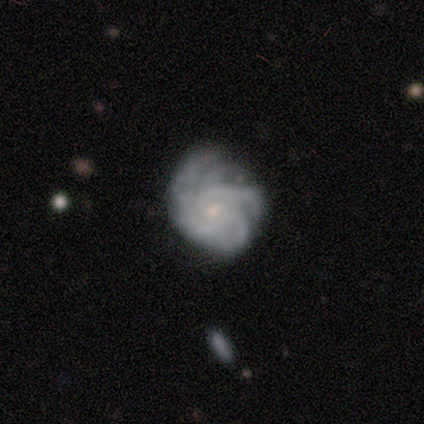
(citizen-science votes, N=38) Morphology: type=featured or disk (92%); edge-on=no (100%); bar=no (63%); spiral arms=yes (100%); winding=tight (63%); arm count=4 (37%); bulge=small (77%); merging=none (68%).